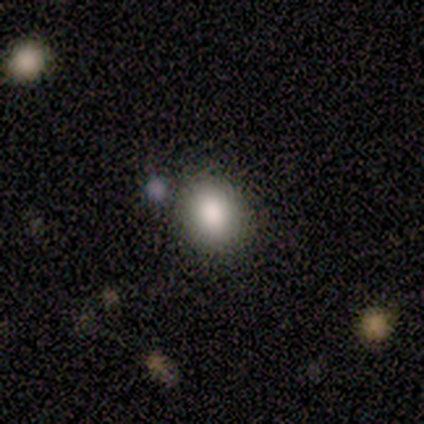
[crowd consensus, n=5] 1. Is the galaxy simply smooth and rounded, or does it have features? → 80% smooth, 20% featured or disk, 0% star or artifact.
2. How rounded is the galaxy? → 75% round, 25% in between, 0% cigar-shaped.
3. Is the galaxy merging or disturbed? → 100% none, 0% minor disturbance, 0% major disturbance, 0% merger.